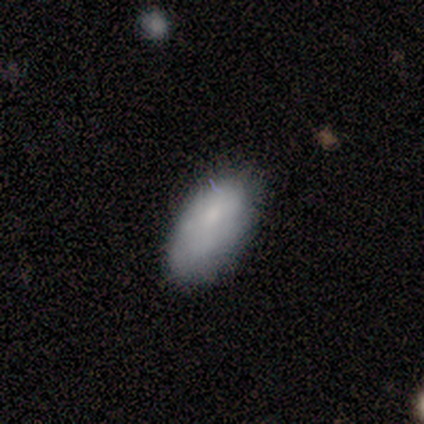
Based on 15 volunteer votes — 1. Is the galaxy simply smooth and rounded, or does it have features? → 93% smooth, 7% featured or disk, 0% star or artifact.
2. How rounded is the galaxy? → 100% in between, 0% round, 0% cigar-shaped.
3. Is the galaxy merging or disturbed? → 87% none, 13% minor disturbance, 0% major disturbance, 0% merger.